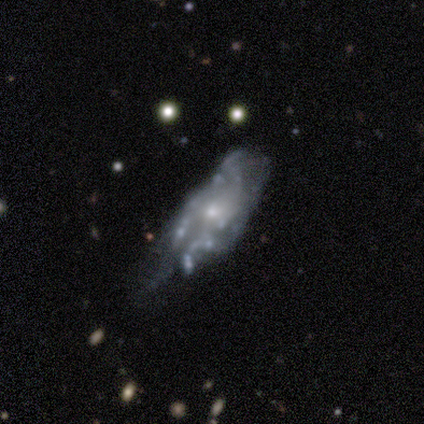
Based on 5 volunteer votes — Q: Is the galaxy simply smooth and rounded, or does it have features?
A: featured or disk — 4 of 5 (80%).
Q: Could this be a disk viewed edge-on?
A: no — 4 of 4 (100%).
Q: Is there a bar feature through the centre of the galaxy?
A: no — 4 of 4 (100%).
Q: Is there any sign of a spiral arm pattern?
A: yes — 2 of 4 (50%, tied with no).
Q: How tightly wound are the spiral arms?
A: loose — 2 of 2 (100%).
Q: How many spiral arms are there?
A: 3 — 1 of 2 (50%, tied with can't tell).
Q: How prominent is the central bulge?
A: moderate — 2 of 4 (50%, tied with small).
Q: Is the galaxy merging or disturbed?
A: minor disturbance — 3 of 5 (60%).